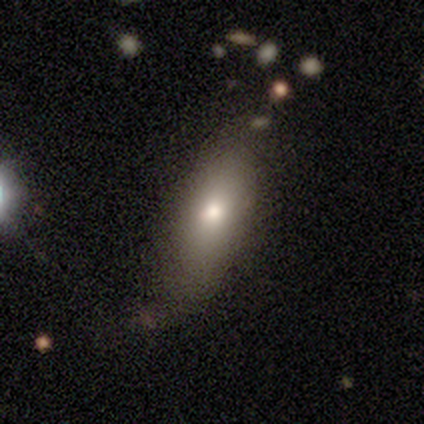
Q: Smooth or featured?
A: featured or disk (60%); runner-up: smooth (40%)
Q: Edge-on disk?
A: no (67%); runner-up: yes (33%)
Q: Bar?
A: no (100%)
Q: Spiral arms?
A: yes (50%); tied with: no (50%)
Q: Spiral winding?
A: tight (100%)
Q: Spiral arm count?
A: 2 (100%)
Q: Bulge size?
A: moderate (50%); tied with: small (50%)
Q: Merging?
A: none (60%); runner-up: minor disturbance (40%)